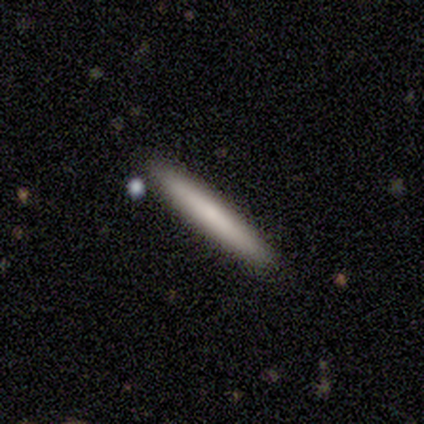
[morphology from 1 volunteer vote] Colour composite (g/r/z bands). It shows a featured or disk galaxy (100%) viewed edge-on (100%) with a rounded central bulge (100%). Merging: none (100%).